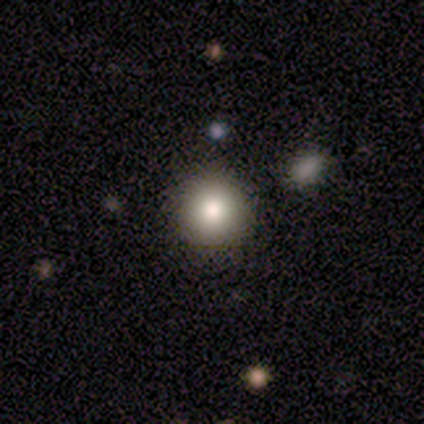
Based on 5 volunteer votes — Overall: smooth (80%). How rounded: round (100%). Merging: none (100%).